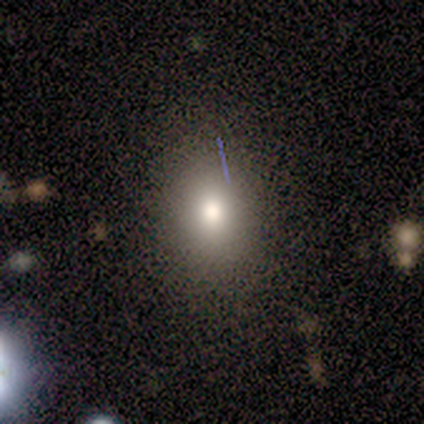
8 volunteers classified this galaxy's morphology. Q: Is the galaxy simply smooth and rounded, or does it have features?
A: smooth — 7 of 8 (88%).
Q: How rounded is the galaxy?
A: round — 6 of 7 (86%).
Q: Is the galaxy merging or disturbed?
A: none — 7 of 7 (100%).